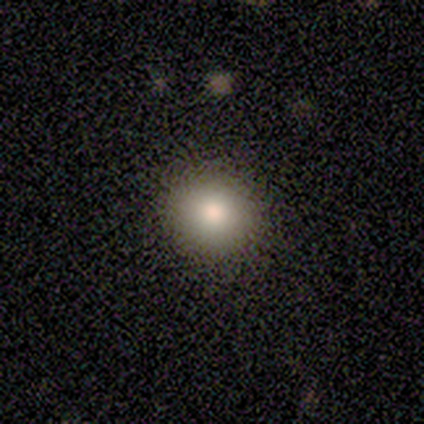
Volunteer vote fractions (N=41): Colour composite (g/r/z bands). It shows a smooth galaxy with no disk features (85%) that is round (83%). Merging: none (72%).